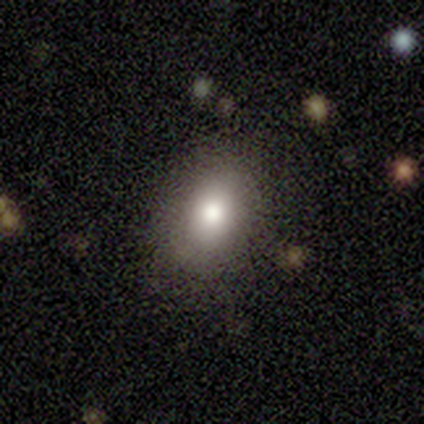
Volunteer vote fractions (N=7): This appears to be a smooth galaxy with no disk features (57%) that is round (50%, tied with in between). Merging: none (100%).